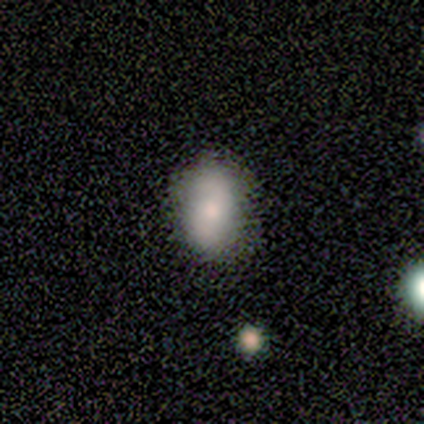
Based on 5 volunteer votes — This appears to be a smooth galaxy with no disk features (100%) that is in between round and cigar-shaped (60%). Merging: none (100%).